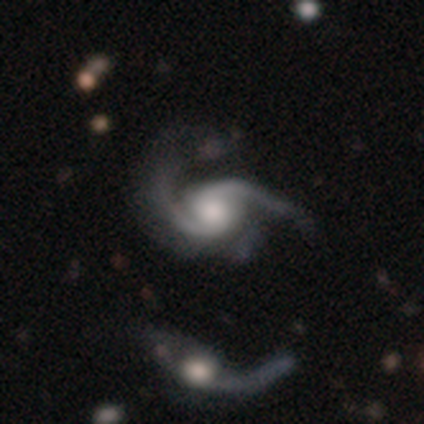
A featured or disk galaxy (80%) with no bar (75%), 2 (100%) tight (50%) spiral arms (100%) and a large central bulge (50%, tied with moderate). Merging: major disturbance (50%).